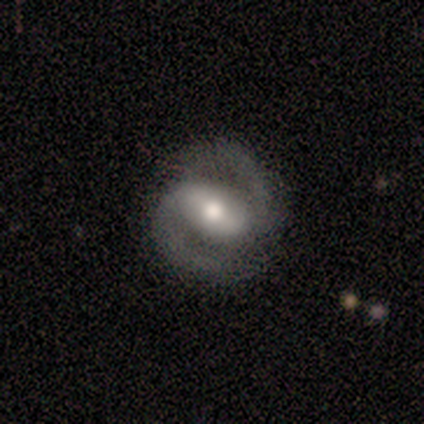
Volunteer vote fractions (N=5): Volunteers were most divided on "bar": strong: 50%, weak: 25%, no: 25%. More confident: edge-on disk — no (100%); spiral arms — yes (100%); spiral arm count — 2 (100%); bulge size — moderate (100%); smooth or featured — featured or disk (80%); merging — none (80%); spiral winding — tight (50%).